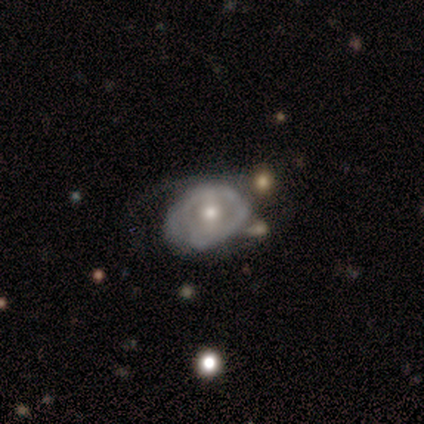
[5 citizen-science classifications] This appears to be a featured or disk galaxy (60%) with no bar (100%), 2 (50%, tied with can't tell) loose (100%) spiral arms (67%) and a small central bulge (67%). Merging: major disturbance (40%).